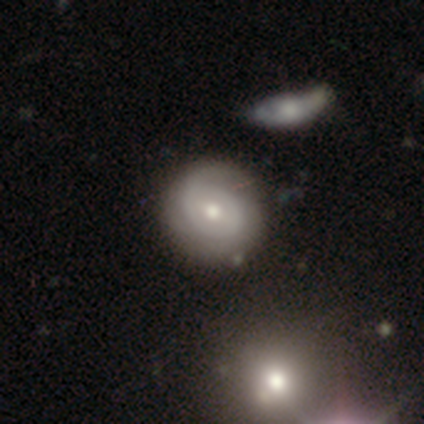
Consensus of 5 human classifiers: This is likely a featured or disk galaxy (60%). It is clearly not viewed edge-on (100%). Bar: likely weak (67%). Spiral arm pattern: clearly yes (100%). Spiral arm count: likely 2 (67%). Spiral winding: marginally tight (33%, tied with medium and loose). Central bulge: likely moderate (67%). Merging: clearly none (100%).